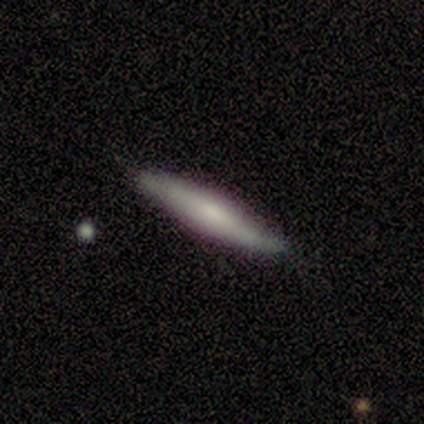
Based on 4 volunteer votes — This is likely a smooth galaxy (75%). How rounded: clearly cigar-shaped (100%). Merging: likely none (75%).